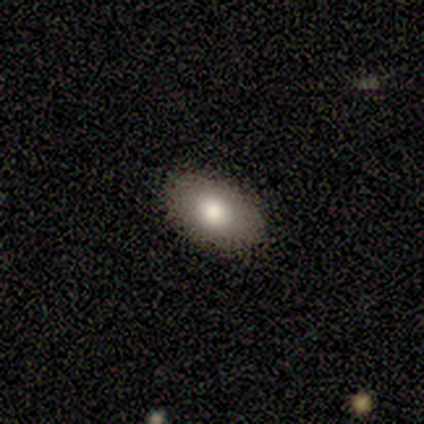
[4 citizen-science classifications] A smooth galaxy with no disk features (100%) that is in between round and cigar-shaped (100%).

Vote fractions:
- Smooth or featured? smooth: 100% / featured or disk: 0% / star or artifact: 0%
- How rounded? in between: 100% / round: 0% / cigar-shaped: 0%
- Merging? none: 100% / minor disturbance: 0% / major disturbance: 0% / merger: 0%